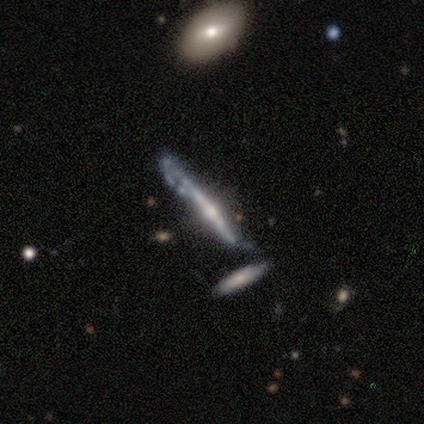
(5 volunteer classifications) Overall: featured or disk (100%). Edge-on disk: yes (80%). Edge-on bulge: rounded (100%). Merging: major disturbance (40%; none 20%).